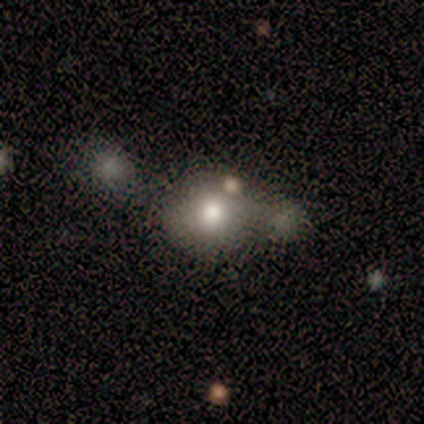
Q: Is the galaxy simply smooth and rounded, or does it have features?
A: smooth — 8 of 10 (80%).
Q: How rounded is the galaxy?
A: round — 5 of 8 (62%).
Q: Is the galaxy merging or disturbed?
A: none — 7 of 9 (78%).